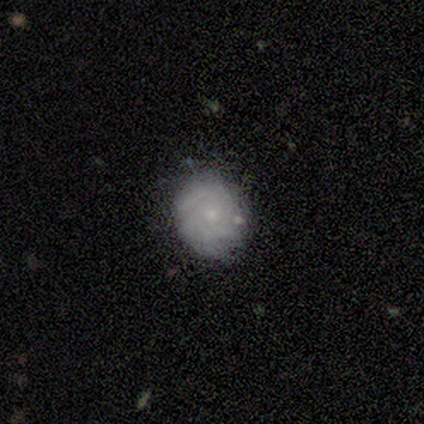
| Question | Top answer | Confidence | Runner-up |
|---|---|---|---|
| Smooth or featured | smooth | 60% | featured or disk (40%) |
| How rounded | round | 100% | — |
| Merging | none | 100% | — |